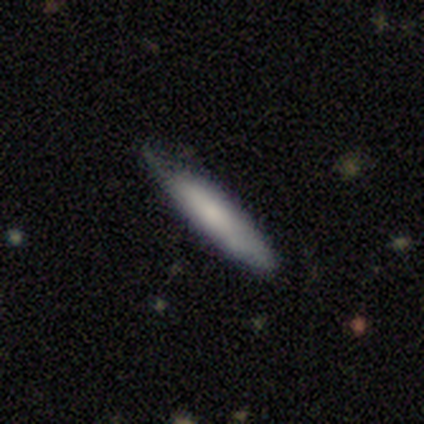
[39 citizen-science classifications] Overall: smooth (67%; featured or disk 28%). How rounded: cigar-shaped (73%). Merging: none (57%; minor disturbance 43%).